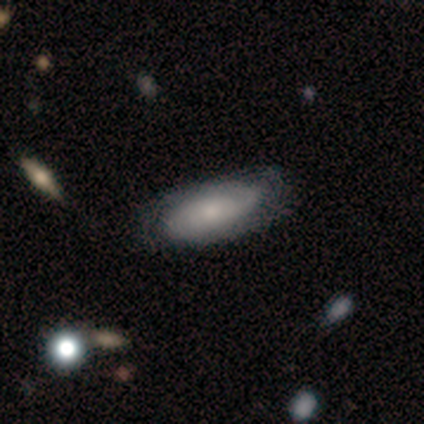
This is possibly a featured or disk galaxy (52%). It is clearly not viewed edge-on (90%). Bar: clearly no (84%). Spiral arm pattern: clearly yes (95%). Spiral arm count: marginally can't tell (39%). Spiral winding: possibly tight (56%). Central bulge: possibly small (47%). Merging: possibly none (50%).